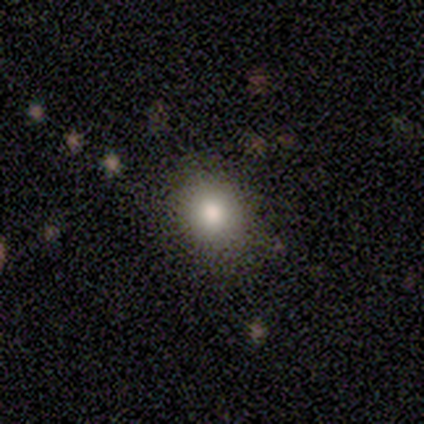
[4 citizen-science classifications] Morphology: type=smooth (75%); roundness=in between (67%); merging=none (100%).